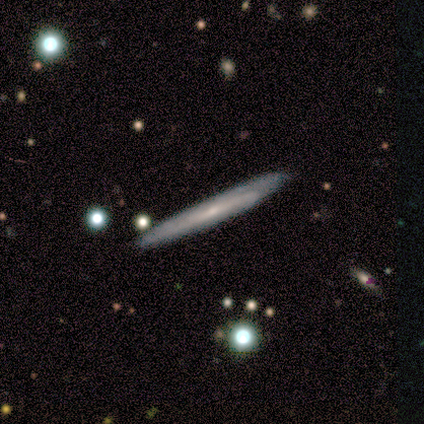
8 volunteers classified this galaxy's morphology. smooth 50% (tied), featured or disk 50% (tied), star or artifact 0%. Down the decision tree: how rounded — cigar-shaped (75%); merging — none (100%).